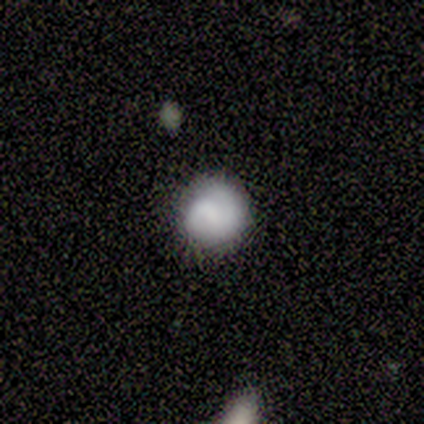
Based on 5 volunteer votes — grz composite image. It shows a smooth galaxy with no disk features (100%) that is round (100%). Merging: none (100%).